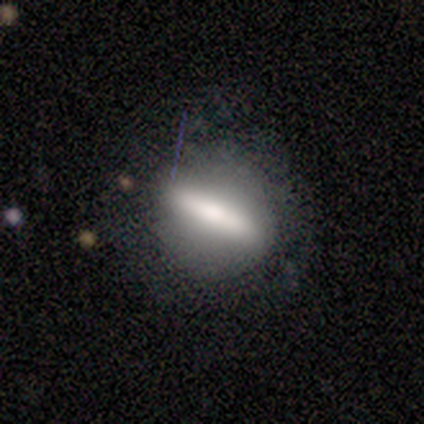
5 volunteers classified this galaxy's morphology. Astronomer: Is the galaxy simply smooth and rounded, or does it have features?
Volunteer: smooth — 80%.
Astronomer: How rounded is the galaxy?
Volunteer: cigar-shaped — 75%.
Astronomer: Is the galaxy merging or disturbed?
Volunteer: none — 80%.